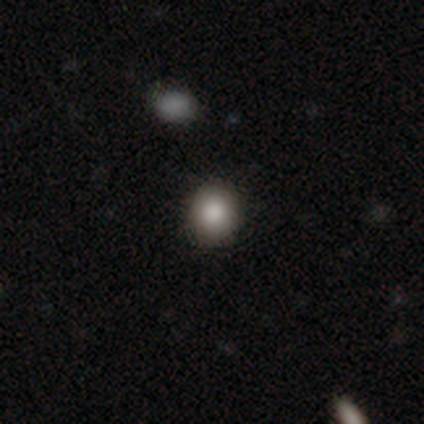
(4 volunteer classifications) smooth 100%, featured or disk 0%, star or artifact 0%. Down the decision tree: how rounded — round (50%, tied with in between); merging — none (75%).